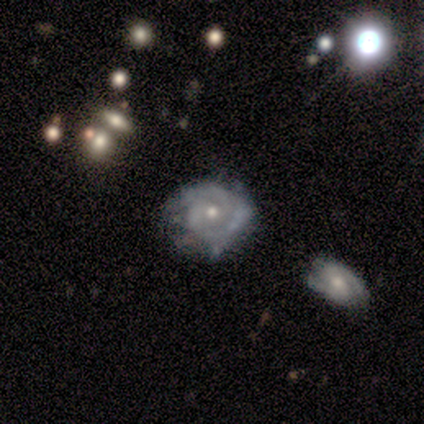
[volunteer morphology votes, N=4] Smooth or featured: featured or disk — 75% (smooth — 25%)
Edge-on disk: no — 100%
Bar: no — 100%
Spiral arms: yes — 100%
Spiral winding: tight — 67% (loose — 33%)
Spiral arm count: 1 — 33% (tied with 2 — 33%; can't tell — 33%)
Bulge size: small — 100%
Merging: none — 50% (minor disturbance — 25%)